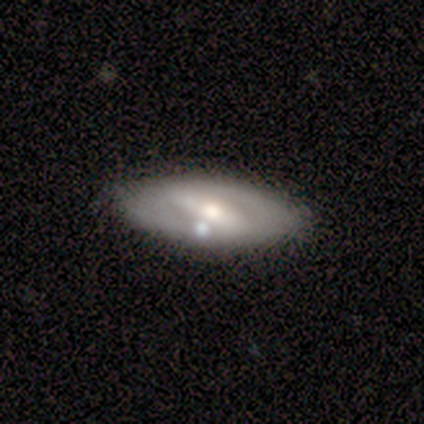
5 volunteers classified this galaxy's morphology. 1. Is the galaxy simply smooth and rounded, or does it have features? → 60% featured or disk, 40% smooth, 0% star or artifact.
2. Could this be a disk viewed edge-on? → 100% no, 0% yes.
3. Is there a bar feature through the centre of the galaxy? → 67% strong, 33% weak, 0% no.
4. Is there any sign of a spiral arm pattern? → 100% no, 0% yes.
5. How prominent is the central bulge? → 67% moderate, 33% small, 0% dominant, 0% large, 0% none.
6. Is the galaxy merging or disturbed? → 100% none, 0% minor disturbance, 0% major disturbance, 0% merger.